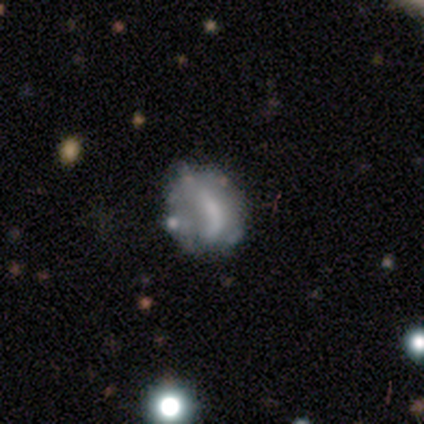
Smooth or featured?
  - featured or disk: 79% *
  - smooth: 13%
  - star or artifact: 8%
Edge-on disk?
  - no: 100% *
  - yes: 0%
Bar?
  - no: 55% *
  - weak: 29%
  - strong: 16%
Spiral arms?
  - no: 84% *
  - yes: 16%
Bulge size?
  - none: 52% *
  - small: 29%
  - large: 10%
  - moderate: 10%
  - dominant: 0%
Merging?
  - none: 25% *
  - minor disturbance: 22%
  - merger: 17%
  - major disturbance: 14%